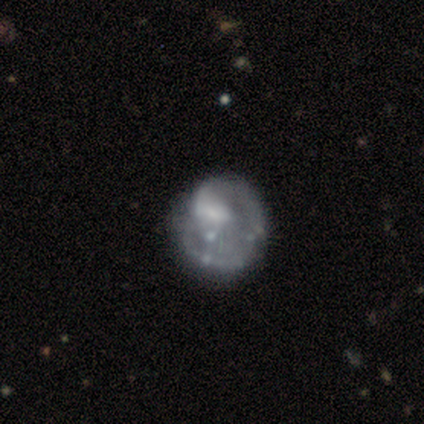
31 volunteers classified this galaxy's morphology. smooth-or-featured: featured or disk: 68% | smooth: 19% | star or artifact: 13%
  disk-edge-on: no: 100% | yes: 0%
    bar: no: 71% | weak: 24% | strong: 5%
    has-spiral-arms: no: 52% | yes: 48%
    bulge-size: none: 48% | small: 29% | large: 14% | moderate: 10% | dominant: 0%
  merging: none: 44% | minor disturbance: 37% | major disturbance: 15% | merger: 4%